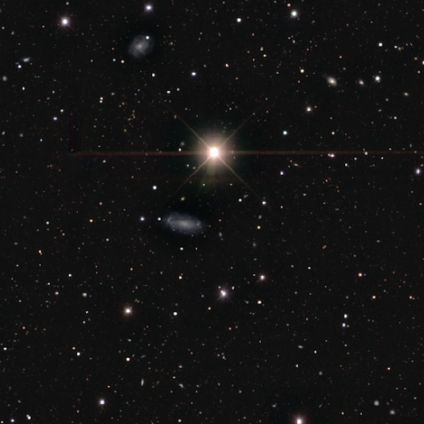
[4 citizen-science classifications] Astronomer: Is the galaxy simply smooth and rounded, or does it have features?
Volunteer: star or artifact — 75%.